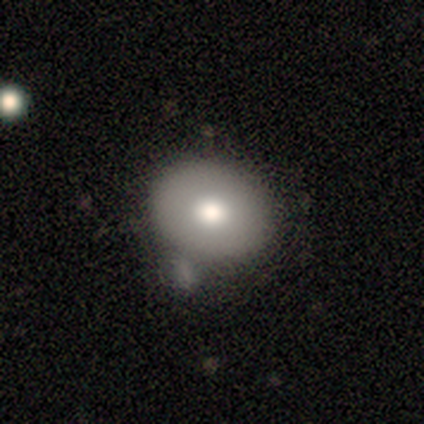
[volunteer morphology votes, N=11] smooth_or_featured: smooth (p=0.82) [alt: star or artifact p=0.18]
how_rounded: round (p=0.78) [alt: in between p=0.22]
merging: none (p=0.67) [alt: minor disturbance p=0.22]